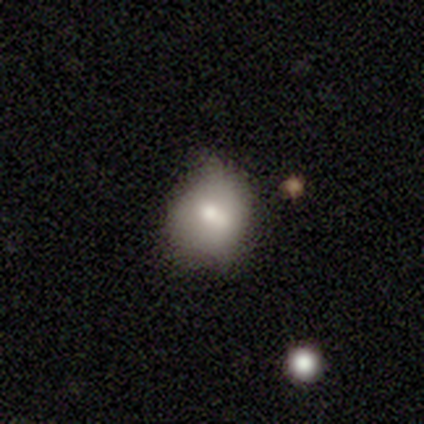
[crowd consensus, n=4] smooth-or-featured: smooth: 100% | featured or disk: 0% | star or artifact: 0%
  how-rounded: round: 75% | in between: 25% | cigar-shaped: 0%
  merging: none: 100% | minor disturbance: 0% | major disturbance: 0% | merger: 0%